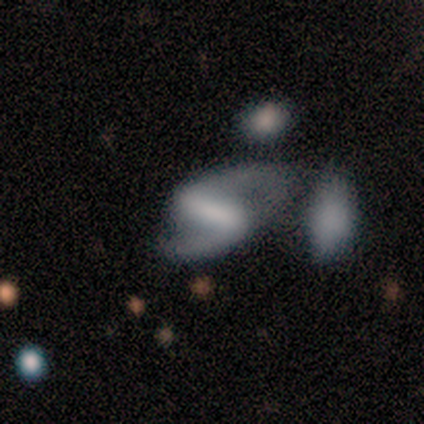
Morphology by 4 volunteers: Volunteers were most divided on "bulge size" (3-way tie): large: 33%, moderate: 33%, none: 33%, dominant: 0%, small: 0%; "merging" (3-way tie): none: 33%, major disturbance: 33%, merger: 33%, minor disturbance: 0%. More confident: edge-on disk — no (100%); spiral arms — yes (100%); spiral arm count — 2 (100%); smooth or featured — featured or disk (75%); bar — weak (67%); spiral winding — medium (67%).